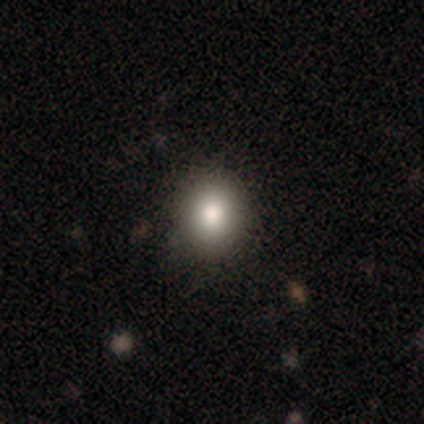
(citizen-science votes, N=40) smooth 80%, featured or disk 10%, star or artifact 10%. Down the decision tree: how rounded — round (53%); merging — none (56%).